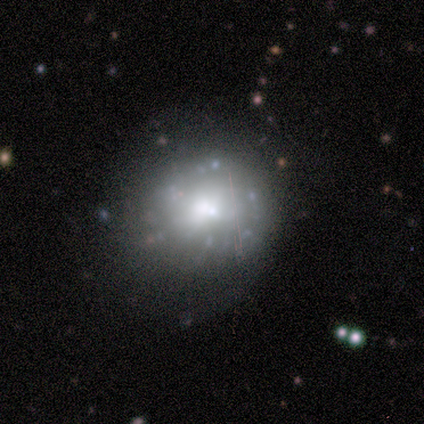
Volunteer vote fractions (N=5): Smooth or featured: smooth — 40% (tied with featured or disk — 40%)
How rounded: round — 50% (tied with in between — 50%)
Merging: none — 50% (tied with minor disturbance — 50%)